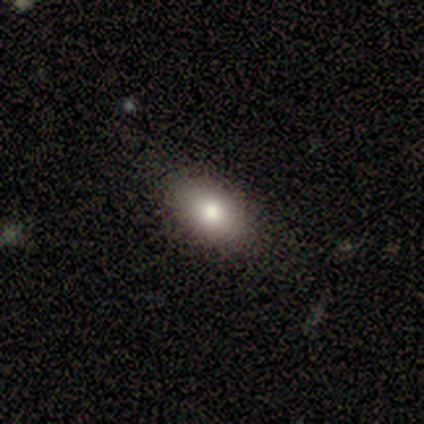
A smooth galaxy with no disk features (100%) that is in between round and cigar-shaped (80%). Merging: none (80%).